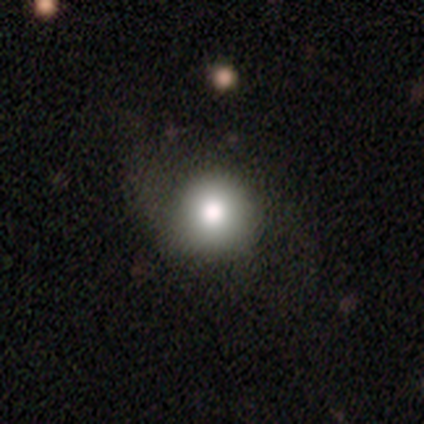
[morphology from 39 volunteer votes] This is likely a smooth galaxy (79%). How rounded: clearly round (90%). Merging: likely none (63%).